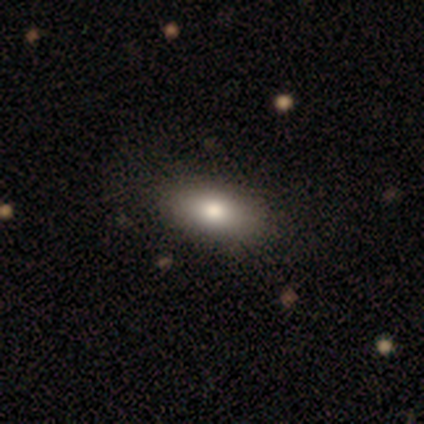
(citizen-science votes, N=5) This is likely a smooth galaxy (60%). How rounded: likely in between (67%). Merging: likely none (75%).